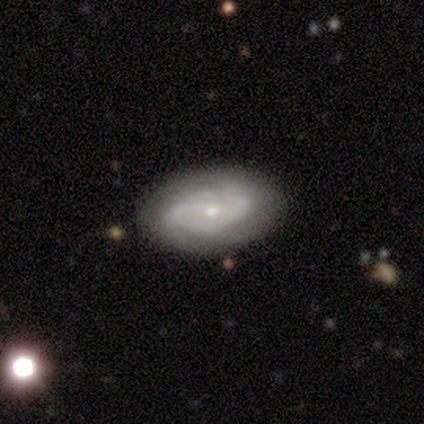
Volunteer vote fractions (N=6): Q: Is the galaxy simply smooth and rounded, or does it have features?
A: smooth — 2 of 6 (33%, tied with featured or disk and star or artifact).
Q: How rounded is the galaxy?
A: round — 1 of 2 (50%, tied with in between).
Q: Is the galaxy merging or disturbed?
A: none — 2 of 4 (50%, tied with minor disturbance).